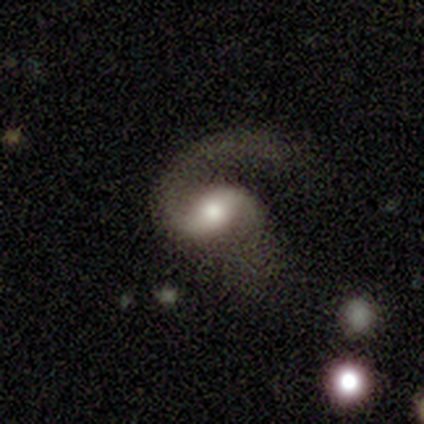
Smooth or featured?
  - featured or disk: 80% *
  - smooth: 20%
  - star or artifact: 0%
Edge-on disk?
  - no: 100% *
  - yes: 0%
Bar?
  - weak: 50% * (tied)
  - no: 50% * (tied)
  - strong: 0%
Spiral arms?
  - yes: 100% *
  - no: 0%
Spiral winding?
  - medium: 50% * (tied)
  - loose: 50% * (tied)
  - tight: 0%
Spiral arm count?
  - 2: 75% *
  - can't tell: 25%
  - 1: 0%
  - 3: 0%
  - 4: 0%
  - more than 4: 0%
Bulge size?
  - moderate: 75% *
  - small: 25%
  - dominant: 0%
  - large: 0%
  - none: 0%
Merging?
  - major disturbance: 60% *
  - none: 40%
  - minor disturbance: 0%
  - merger: 0%